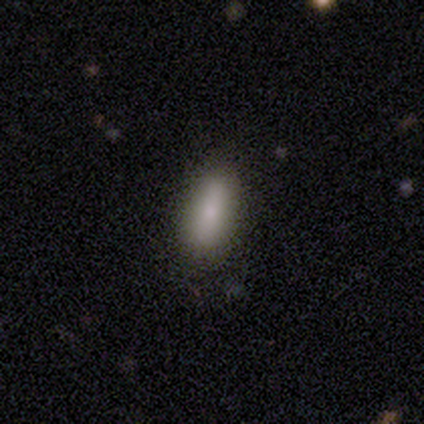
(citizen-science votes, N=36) smooth 89%, featured or disk 6%, star or artifact 6%. Down the decision tree: how rounded — in between (75%); merging — none (88%).